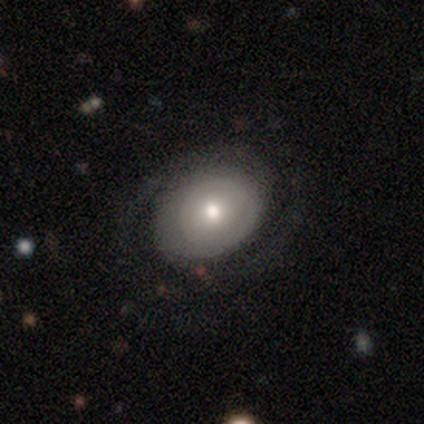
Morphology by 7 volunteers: Overall: smooth (57%; featured or disk 29%). How rounded: in between (75%). Merging: none (50%; minor disturbance 33%).